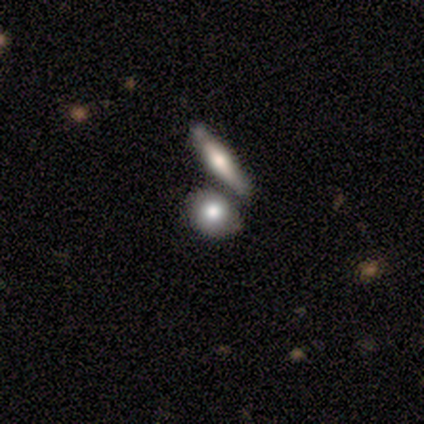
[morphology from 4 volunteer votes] smooth_or_featured: smooth (p=0.75) [alt: featured or disk p=0.25]
how_rounded: round (p=0.67) [alt: cigar-shaped p=0.33]
merging: merger (p=0.75) [alt: none p=0.25]